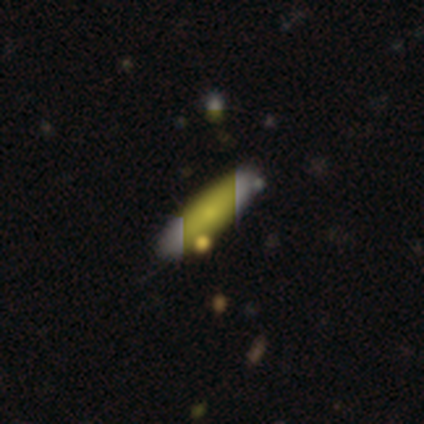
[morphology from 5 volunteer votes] Q: Smooth or featured?
A: smooth (40%); tied with: featured or disk (40%)
Q: How rounded?
A: in between (50%); tied with: cigar-shaped (50%)
Q: Merging?
A: none (100%)